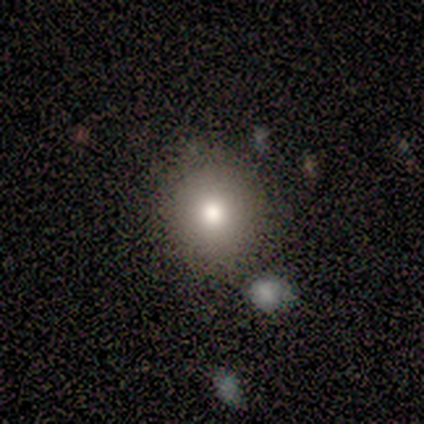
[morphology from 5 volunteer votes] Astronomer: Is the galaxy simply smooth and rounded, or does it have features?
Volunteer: smooth — 80%.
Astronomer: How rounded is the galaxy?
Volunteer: round — 100%.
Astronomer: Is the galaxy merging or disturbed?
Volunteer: none — 100%.